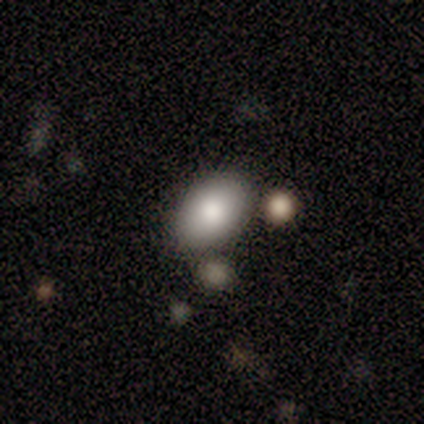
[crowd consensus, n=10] A smooth galaxy with no disk features (80%) that is in between round and cigar-shaped (88%). Merging: none (75%).